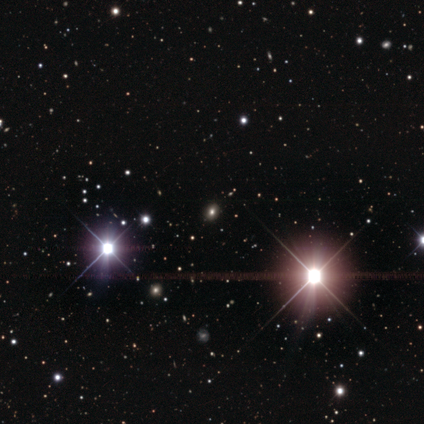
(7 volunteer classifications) smooth_or_featured: star or artifact (p=0.71) [alt: smooth p=0.29]